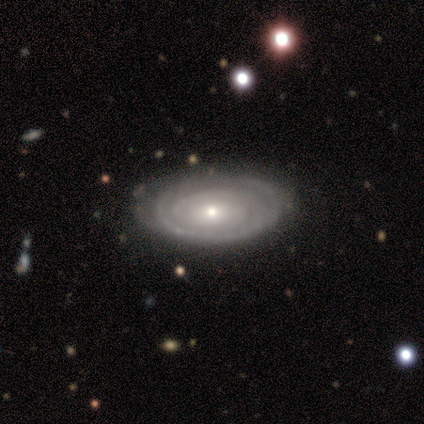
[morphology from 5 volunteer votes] This appears to be a featured or disk galaxy (100%) with no bar (100%), tight (100%) spiral arms (60%) and a moderate central bulge (40%, tied with small). Merging: none (100%).